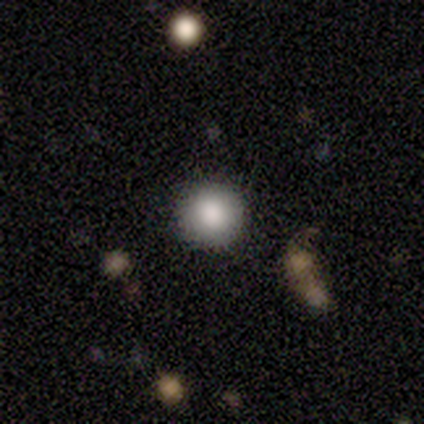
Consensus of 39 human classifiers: smooth_or_featured: smooth (p=0.82) [alt: featured or disk p=0.10]
how_rounded: round (p=0.94) [alt: in between p=0.03]
merging: none (p=0.94) [alt: minor disturbance p=0.06]